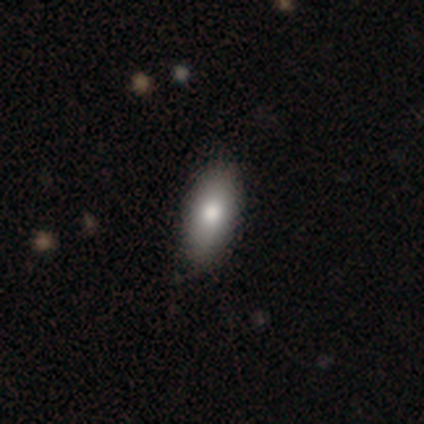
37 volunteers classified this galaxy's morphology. Overall: smooth (92%). How rounded: in between (74%). Merging: none (83%).